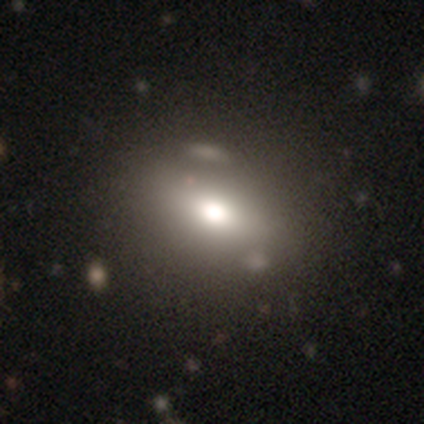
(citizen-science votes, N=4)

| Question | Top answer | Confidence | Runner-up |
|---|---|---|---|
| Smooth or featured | smooth | 100% | — |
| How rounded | in between | 75% | round (25%) |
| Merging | none | 75% | minor disturbance (25%) |